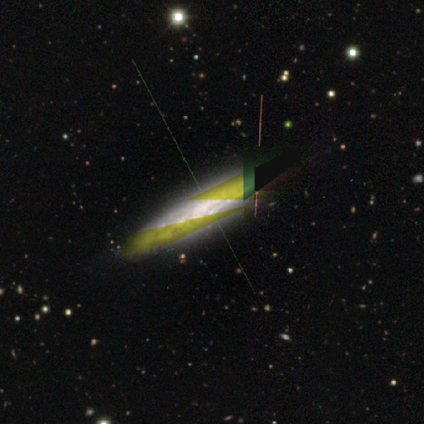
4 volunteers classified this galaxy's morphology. smooth-or-featured: star or artifact: 100% | smooth: 0% | featured or disk: 0%